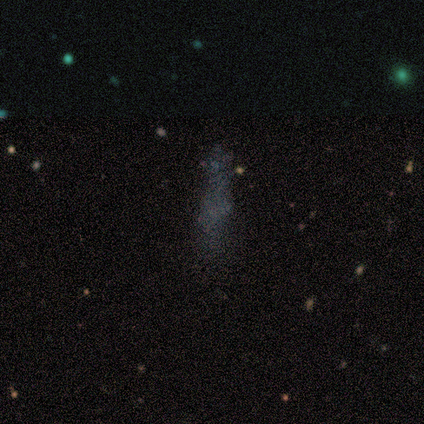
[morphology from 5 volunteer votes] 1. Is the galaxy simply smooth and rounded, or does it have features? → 60% featured or disk, 20% smooth, 20% star or artifact.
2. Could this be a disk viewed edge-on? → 100% no, 0% yes.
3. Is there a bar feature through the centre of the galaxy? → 67% no, 33% weak, 0% strong.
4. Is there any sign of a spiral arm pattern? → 100% no, 0% yes.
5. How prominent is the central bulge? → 67% none, 33% small, 0% dominant, 0% large, 0% moderate.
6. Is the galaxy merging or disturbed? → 75% none, 25% major disturbance, 0% minor disturbance, 0% merger.